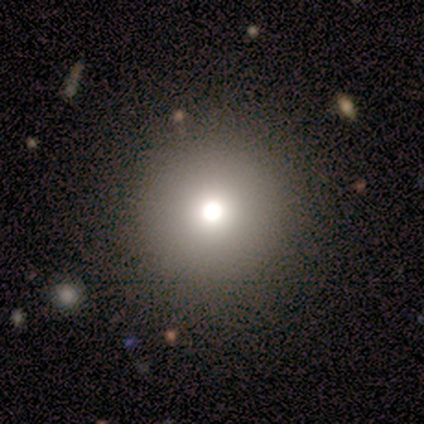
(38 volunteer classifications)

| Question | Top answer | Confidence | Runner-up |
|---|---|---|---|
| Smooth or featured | smooth | 76% | star or artifact (18%) |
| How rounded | round | 100% | — |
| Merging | none | 90% | major disturbance (6%) |